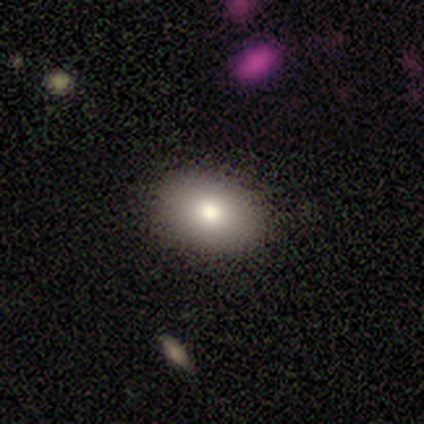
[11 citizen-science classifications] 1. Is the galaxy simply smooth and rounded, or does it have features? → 64% smooth, 27% star or artifact, 9% featured or disk.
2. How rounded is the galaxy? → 86% in between, 14% round, 0% cigar-shaped.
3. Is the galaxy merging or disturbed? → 100% none, 0% minor disturbance, 0% major disturbance, 0% merger.